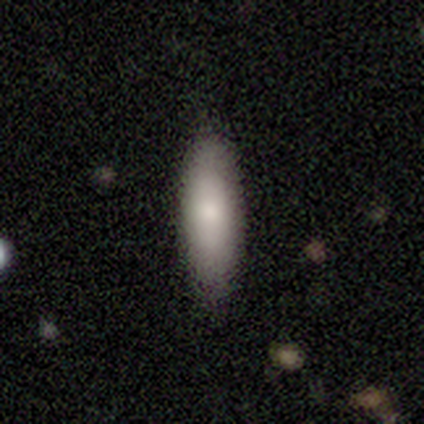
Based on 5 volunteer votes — Smooth or featured? 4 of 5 (80%) said smooth. How rounded? 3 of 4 (75%) said in between. Merging? 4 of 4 (100%) said none.